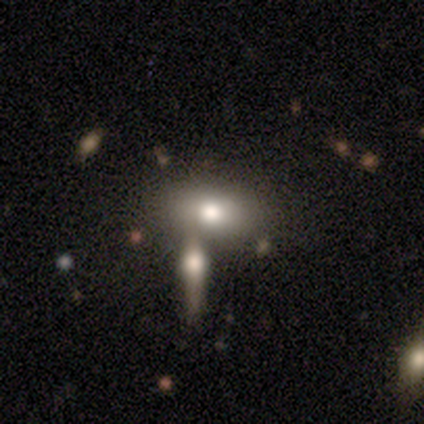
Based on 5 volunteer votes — Smooth or featured: smooth — 100%
How rounded: in between — 80% (round — 20%)
Merging: none — 40% (tied with minor disturbance — 40%)